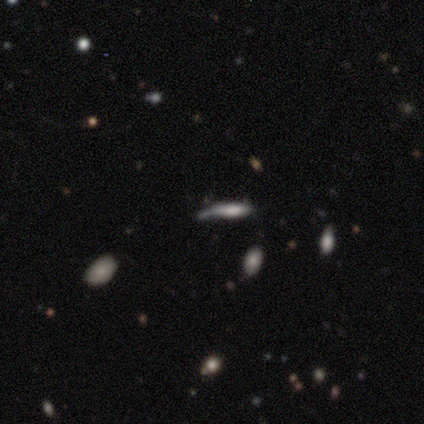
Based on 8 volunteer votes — smooth-or-featured: smooth: 38% (tied) | featured or disk: 38% (tied) | star or artifact: 25%
  how-rounded: cigar-shaped: 100% | round: 0% | in between: 0%
  merging: minor disturbance: 50% | none: 33% | merger: 17% | major disturbance: 0%